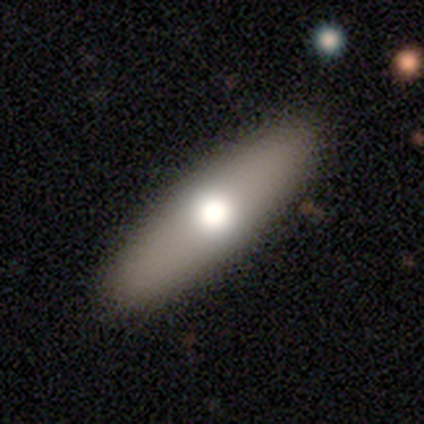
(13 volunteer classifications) Smooth or featured: smooth — 77% (featured or disk — 23%)
How rounded: in between — 50% (cigar-shaped — 40%)
Merging: none — 77% (minor disturbance — 15%)